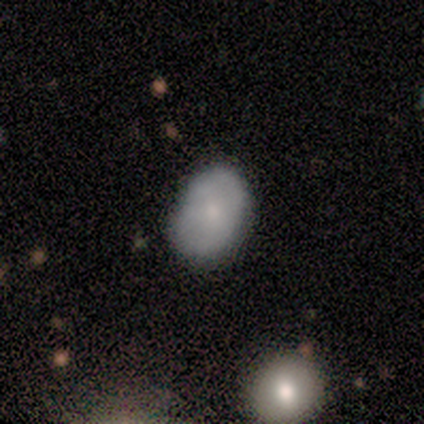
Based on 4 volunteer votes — Smooth or featured: smooth — 100%
How rounded: in between — 75% (round — 25%)
Merging: none — 50% (tied with minor disturbance — 50%)